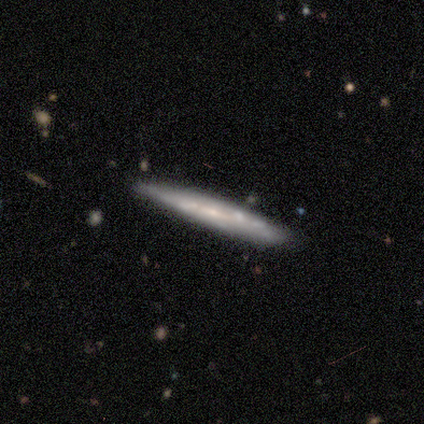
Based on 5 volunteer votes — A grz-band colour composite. It shows a featured or disk galaxy (80%) viewed edge-on (75%) with a boxy central bulge (33%, tied with none and rounded). Merging: none (100%).